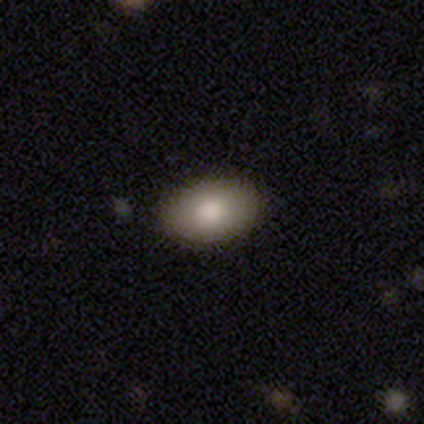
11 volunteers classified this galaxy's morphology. Overall: smooth (82%). How rounded: in between (89%). Merging: none (100%).